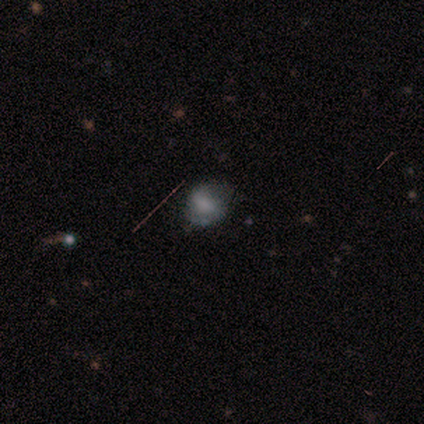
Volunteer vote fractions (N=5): Smooth or featured? featured or disk (40%, tied with star or artifact)
Edge-on disk? no (100%)
Bar? strong (50%, tied with no)
Spiral arms? yes (100%)
Spiral winding? tight (50%, tied with medium)
Spiral arm count? 2 (100%)
Bulge size? large (50%, tied with moderate)
Merging? none (100%)